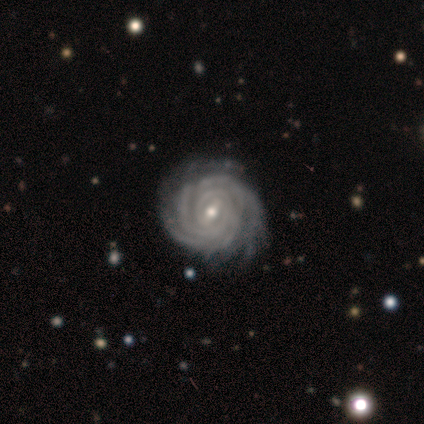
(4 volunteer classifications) smooth-or-featured: featured or disk: 100% | smooth: 0% | star or artifact: 0%
  disk-edge-on: no: 100% | yes: 0%
    bar: strong: 50% (tied) | weak: 50% (tied) | no: 0%
    has-spiral-arms: yes: 100% | no: 0%
      spiral-winding: tight: 100% | medium: 0% | loose: 0%
      spiral-arm-count: more than 4: 50% | 2: 25% | 3: 25% | 1: 0% | 4: 0% | can't tell: 0%
    bulge-size: moderate: 75% | small: 25% | dominant: 0% | large: 0% | none: 0%
  merging: none: 50% (tied) | minor disturbance: 50% (tied) | major disturbance: 0% | merger: 0%